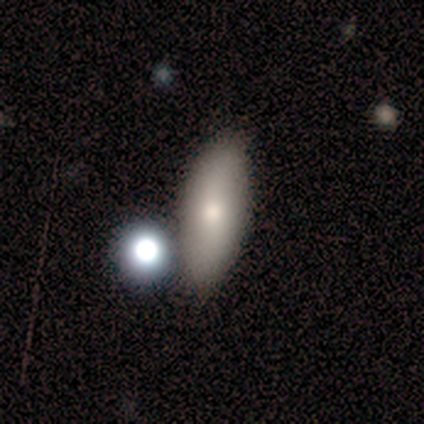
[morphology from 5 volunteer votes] A smooth galaxy with no disk features (60%) that is in between round and cigar-shaped (67%).

Vote fractions:
- Smooth or featured? smooth: 60% / featured or disk: 40% / star or artifact: 0%
- How rounded? in between: 67% / cigar-shaped: 33% / round: 0%
- Merging? none: 80% / minor disturbance: 20% / major disturbance: 0% / merger: 0%